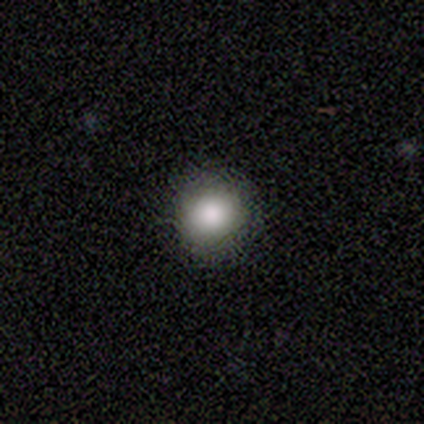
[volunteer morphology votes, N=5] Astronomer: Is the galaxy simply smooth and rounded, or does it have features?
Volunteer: smooth — 100%.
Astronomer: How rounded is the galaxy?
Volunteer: round — 100%.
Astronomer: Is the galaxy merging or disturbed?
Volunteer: none — 100%.